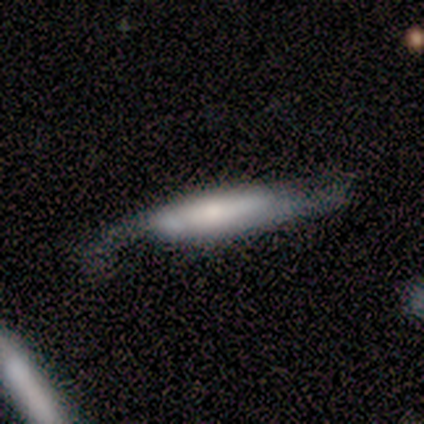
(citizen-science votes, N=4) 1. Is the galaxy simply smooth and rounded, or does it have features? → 50% smooth (tied), 50% featured or disk (tied), 0% star or artifact.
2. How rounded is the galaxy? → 50% in between (tied), 50% cigar-shaped (tied), 0% round.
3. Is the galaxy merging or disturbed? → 50% minor disturbance, 25% none, 25% major disturbance, 0% merger.